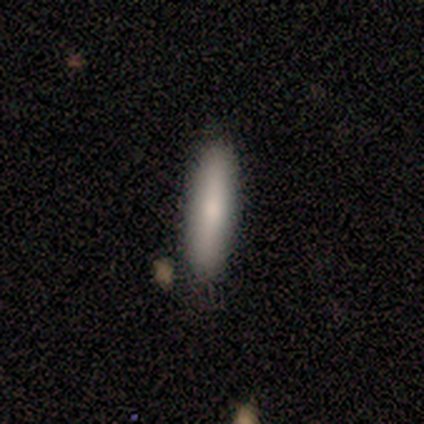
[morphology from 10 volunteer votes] This appears to be a smooth galaxy with no disk features (70%) that is cigar-shaped (71%). Merging: none (100%).